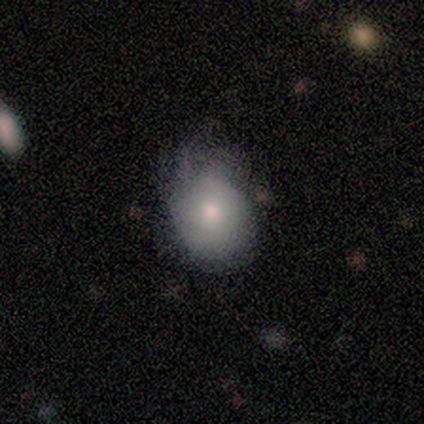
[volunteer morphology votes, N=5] Overall: smooth (80%). How rounded: in between (75%). Merging: minor disturbance (60%; none 20%).